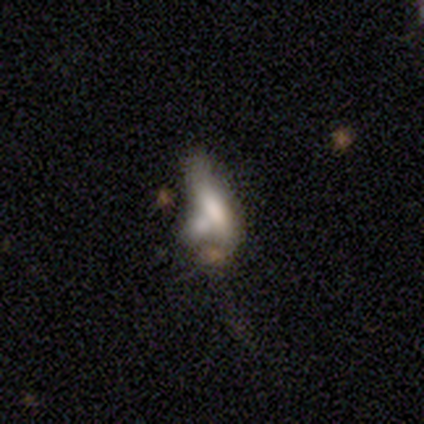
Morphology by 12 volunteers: type=featured or disk (50%); edge-on=no (83%); bar=weak (60%); spiral arms=no (100%); bulge=moderate (60%); merging=merger (36%).